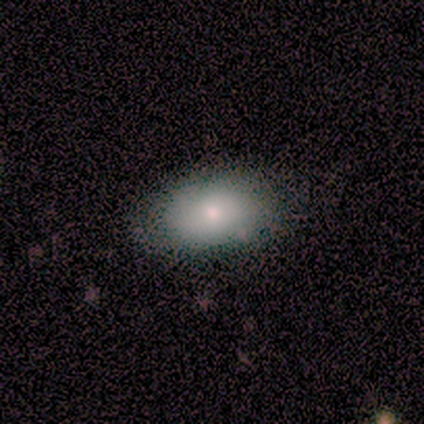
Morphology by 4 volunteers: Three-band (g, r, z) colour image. It shows a smooth galaxy with no disk features (100%) that is in between round and cigar-shaped (100%). Merging: none (75%).